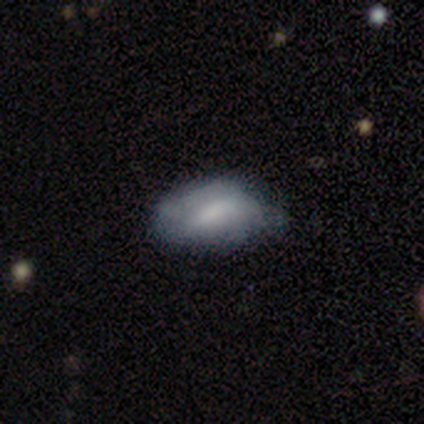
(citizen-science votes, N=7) This appears to be a smooth galaxy with no disk features (71%) that is in between round and cigar-shaped (80%). Merging: minor disturbance (71%).